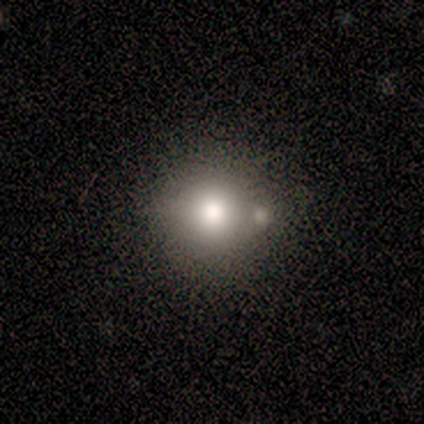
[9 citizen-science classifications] This is likely a smooth galaxy (78%). How rounded: clearly round (86%). Merging: marginally none (43%, tied with minor disturbance).